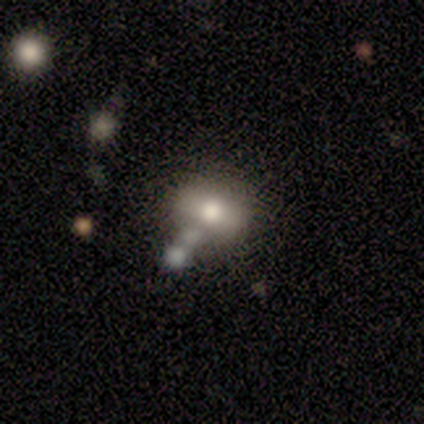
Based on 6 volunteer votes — This appears to be a smooth galaxy with no disk features (50%) that is round (67%). Merging: none (75%).